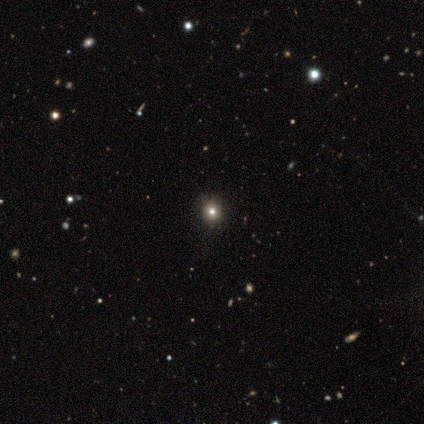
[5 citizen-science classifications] Q: Smooth or featured?
A: star or artifact (80%); runner-up: smooth (20%)